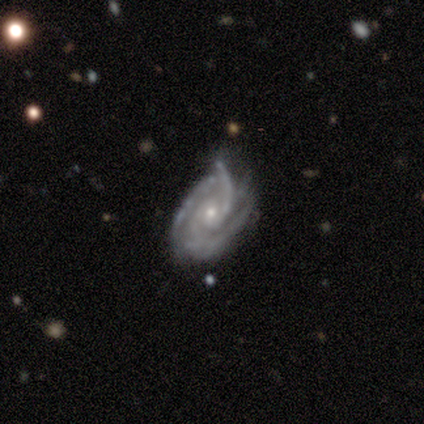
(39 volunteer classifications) smooth-or-featured: featured or disk: 97% | smooth: 3% | star or artifact: 0%
  disk-edge-on: no: 97% | yes: 3%
    bar: no: 68% | weak: 22% | strong: 11%
    has-spiral-arms: yes: 95% | no: 5%
      spiral-winding: tight: 60% | medium: 31% | loose: 9%
      spiral-arm-count: 3: 46% | 2: 29% | can't tell: 11% | 4: 9% | 1: 3% | more than 4: 3%
    bulge-size: small: 73% | moderate: 27% | dominant: 0% | large: 0% | none: 0%
  merging: none: 46% | minor disturbance: 38% | major disturbance: 13% | merger: 3%